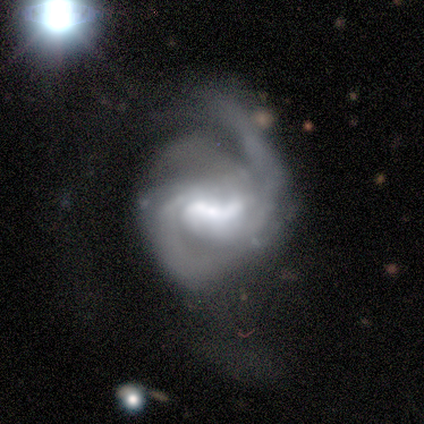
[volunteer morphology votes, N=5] Smooth or featured?
  - featured or disk: 80% *
  - star or artifact: 20%
  - smooth: 0%
Edge-on disk?
  - no: 100% *
  - yes: 0%
Bar?
  - strong: 50% * (tied)
  - weak: 50% * (tied)
  - no: 0%
Spiral arms?
  - yes: 100% *
  - no: 0%
Spiral winding?
  - medium: 100% *
  - tight: 0%
  - loose: 0%
Spiral arm count?
  - 2: 100% *
  - 1: 0%
  - 3: 0%
  - 4: 0%
  - more than 4: 0%
  - can't tell: 0%
Bulge size?
  - large: 50% *
  - dominant: 25%
  - moderate: 25%
  - small: 0%
  - none: 0%
Merging?
  - none: 50% *
  - minor disturbance: 25%
  - major disturbance: 25%
  - merger: 0%